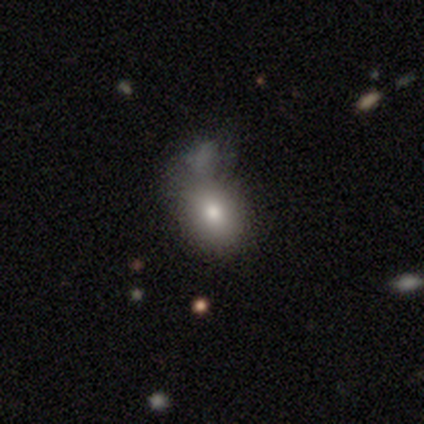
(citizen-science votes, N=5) Volunteers were most divided on "merging" (2-way tie): none: 40%, major disturbance: 40%, merger: 20%, minor disturbance: 0%. More confident: smooth or featured — smooth (100%); how rounded — in between (100%).